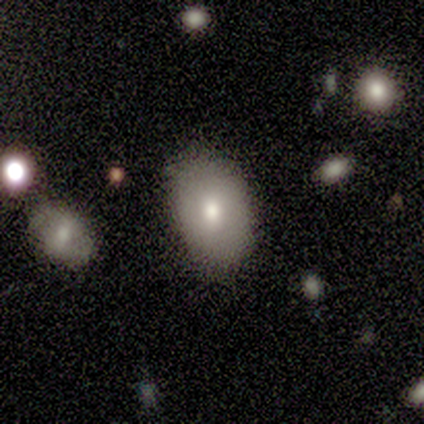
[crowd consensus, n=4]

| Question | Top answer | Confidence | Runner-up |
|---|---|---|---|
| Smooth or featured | smooth | 50% | tied: featured or disk (50%) |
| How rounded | in between | 100% | — |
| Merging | none | 100% | — |